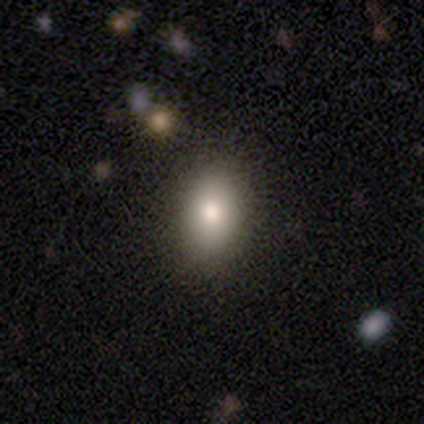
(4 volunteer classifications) smooth 50% (tied), featured or disk 50% (tied), star or artifact 0%. Down the decision tree: how rounded — in between (100%); merging — none (75%).